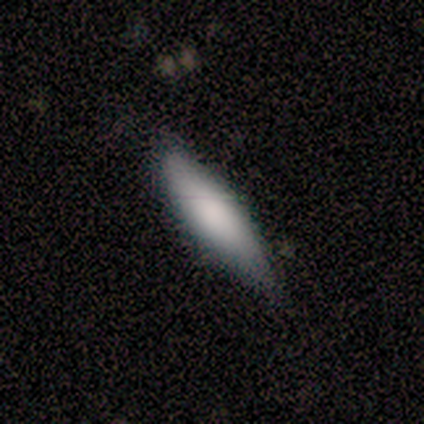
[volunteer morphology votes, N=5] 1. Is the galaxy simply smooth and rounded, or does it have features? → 60% smooth, 40% featured or disk, 0% star or artifact.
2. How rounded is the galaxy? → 67% cigar-shaped, 33% in between, 0% round.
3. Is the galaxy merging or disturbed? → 100% none, 0% minor disturbance, 0% major disturbance, 0% merger.